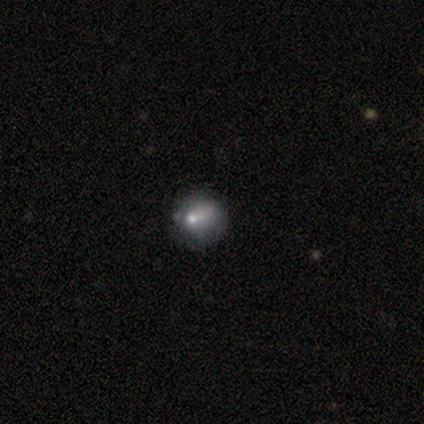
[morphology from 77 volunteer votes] Volunteers were most divided on "merging": none: 41%, minor disturbance: 33%, major disturbance: 23%, merger: 3%. More confident: how rounded — round (68%); smooth or featured — smooth (53%).